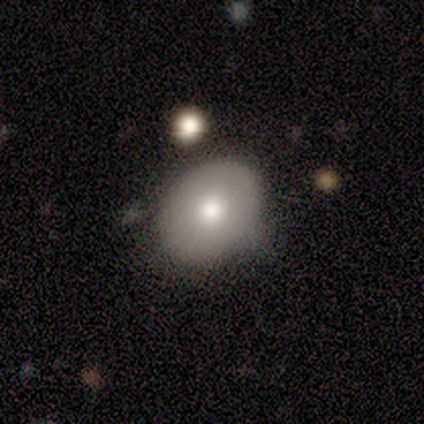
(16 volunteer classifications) Smooth or featured?
  - smooth: 69% *
  - featured or disk: 31%
  - star or artifact: 0%
How rounded?
  - in between: 55% *
  - round: 45%
  - cigar-shaped: 0%
Merging?
  - none: 62% *
  - minor disturbance: 38%
  - major disturbance: 0%
  - merger: 0%